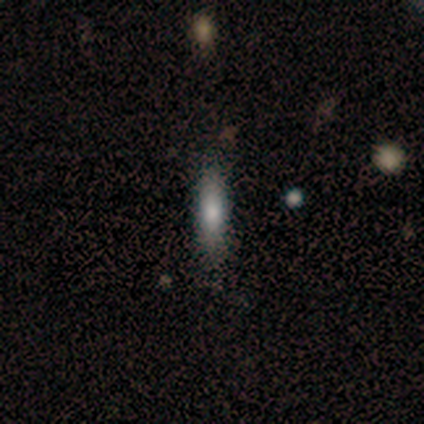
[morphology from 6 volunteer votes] smooth-or-featured: featured or disk: 50% | smooth: 33% | star or artifact: 17%
  disk-edge-on: yes: 67% | no: 33%
    edge-on-bulge: none: 100% | boxy: 0% | rounded: 0%
  merging: none: 60% | minor disturbance: 40% | major disturbance: 0% | merger: 0%